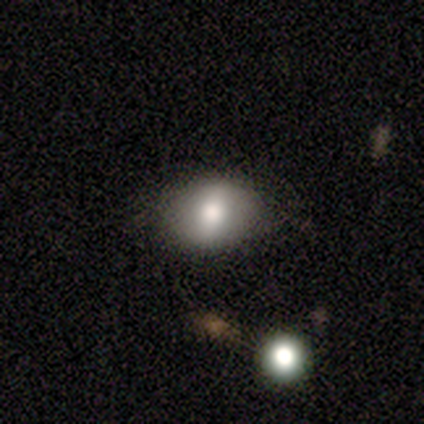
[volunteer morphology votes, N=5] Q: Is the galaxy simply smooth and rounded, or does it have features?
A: featured or disk — 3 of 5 (60%).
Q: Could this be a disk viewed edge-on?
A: no — 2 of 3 (67%).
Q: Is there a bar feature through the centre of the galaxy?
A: weak — 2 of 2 (100%).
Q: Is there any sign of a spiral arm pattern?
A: yes — 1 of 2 (50%, tied with no).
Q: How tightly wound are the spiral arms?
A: loose — 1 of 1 (100%).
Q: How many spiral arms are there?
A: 2 — 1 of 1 (100%).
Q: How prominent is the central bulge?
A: moderate — 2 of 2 (100%).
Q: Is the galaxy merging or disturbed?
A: none — 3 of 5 (60%).